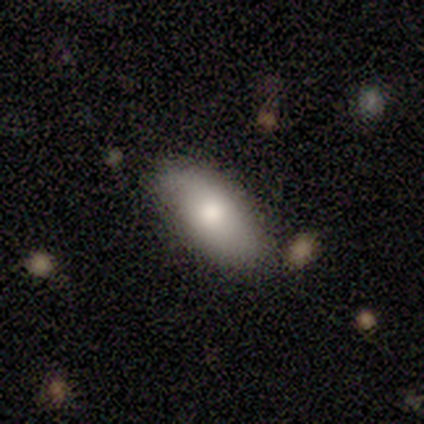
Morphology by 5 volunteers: Volunteers were most divided on "how rounded": in between: 75%, cigar-shaped: 25%, round: 0%. More confident: merging — none (100%); smooth or featured — smooth (80%).